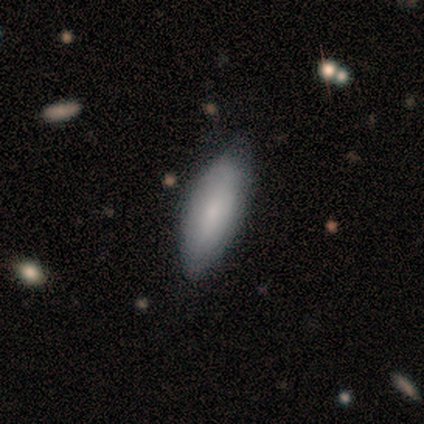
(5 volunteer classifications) A smooth galaxy with no disk features (60%) that is in between round and cigar-shaped (67%).

Vote fractions:
- Smooth or featured? smooth: 60% / featured or disk: 40% / star or artifact: 0%
- How rounded? in between: 67% / cigar-shaped: 33% / round: 0%
- Merging? none: 80% / minor disturbance: 20% / major disturbance: 0% / merger: 0%